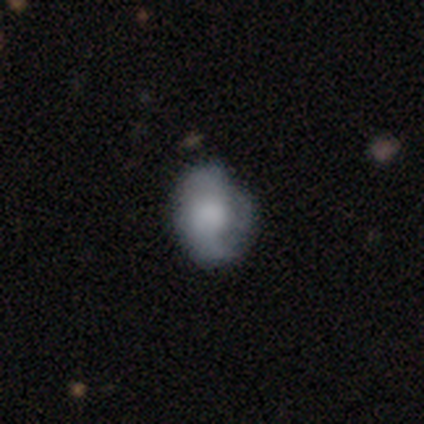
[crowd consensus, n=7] featured or disk 71%, smooth 29%, star or artifact 0%. Down the decision tree: edge-on disk — no (80%); bar — no (100%); spiral arms — yes (50%, tied with no); spiral arm count — 3 (50%, tied with can't tell); spiral winding — tight (50%, tied with medium); bulge size — large (50%); merging — none (57%).